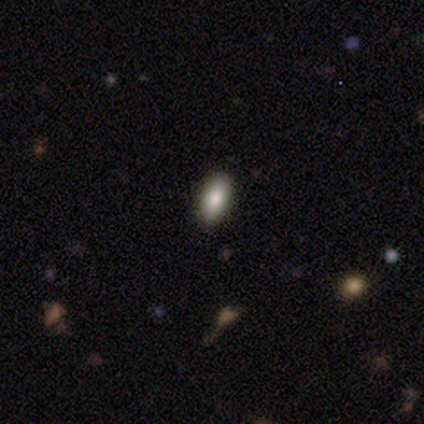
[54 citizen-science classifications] Smooth or featured? 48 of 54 (89%) said smooth. How rounded? 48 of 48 (100%) said in between. Merging? 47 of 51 (92%) said none.